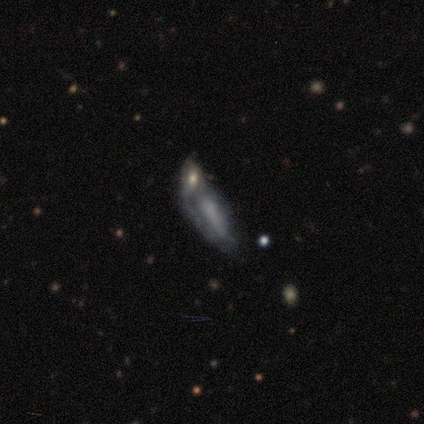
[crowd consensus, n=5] Smooth or featured? 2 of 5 (40%, tied with featured or disk) said smooth. How rounded? 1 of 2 (50%, tied with cigar-shaped) said in between. Merging? 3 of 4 (75%) said merger.